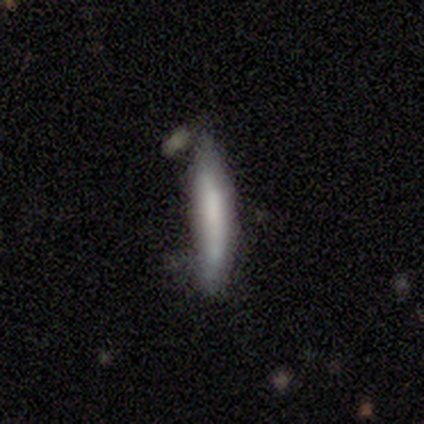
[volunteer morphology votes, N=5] A smooth galaxy with no disk features (60%) that is cigar-shaped (100%). Merging: none (50%, tied with minor disturbance).